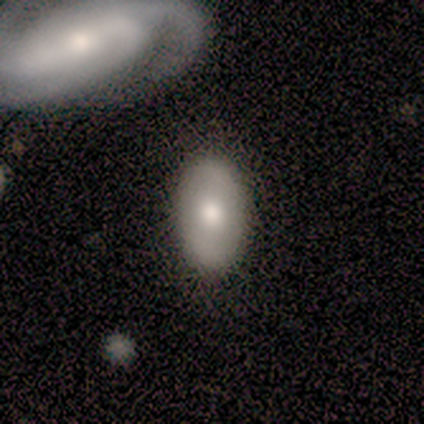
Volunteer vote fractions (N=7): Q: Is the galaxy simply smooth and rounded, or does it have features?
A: smooth — 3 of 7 (43%, tied with featured or disk).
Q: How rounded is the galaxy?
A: in between — 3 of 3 (100%).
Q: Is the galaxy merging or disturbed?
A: none — 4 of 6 (67%).